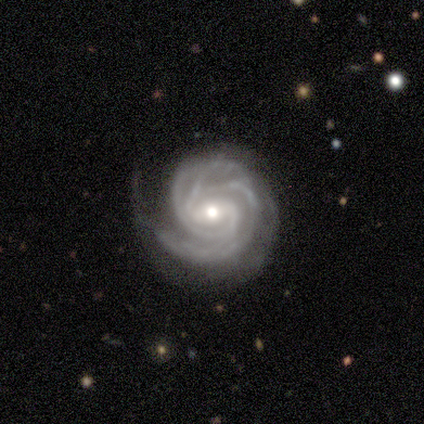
This is clearly a featured or disk galaxy (97%). It is clearly not viewed edge-on (92%). Bar: likely weak (69%). Spiral arm pattern: clearly yes (100%). Spiral arm count: possibly 2 (46%). Spiral winding: likely tight (66%). Central bulge: possibly moderate (54%). Merging: likely none (74%).